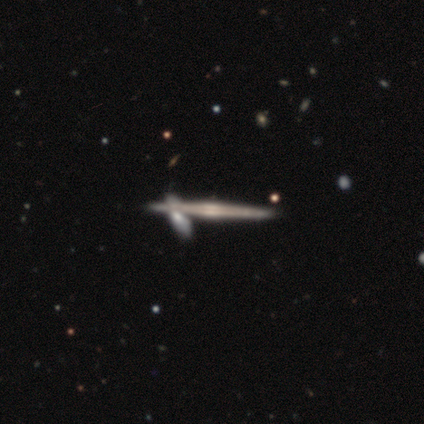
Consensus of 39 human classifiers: This is clearly a featured or disk galaxy (95%). It is clearly viewed edge-on (100%). Edge-on bulge: likely rounded (68%). Merging: possibly none (49%).